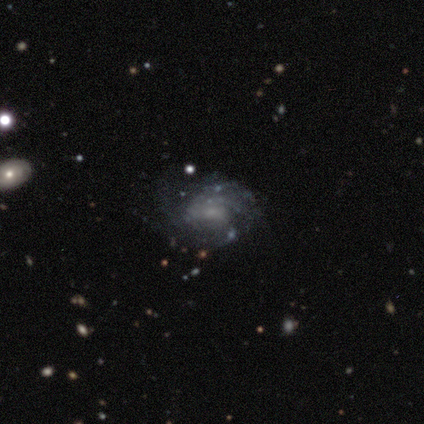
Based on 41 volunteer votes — Smooth or featured? featured or disk (90%)
Edge-on disk? no (100%)
Bar? no (70%)
Spiral arms? yes (89%)
Spiral winding? tight (48%)
Spiral arm count? can't tell (67%)
Bulge size? small (46%)
Merging? none (66%)